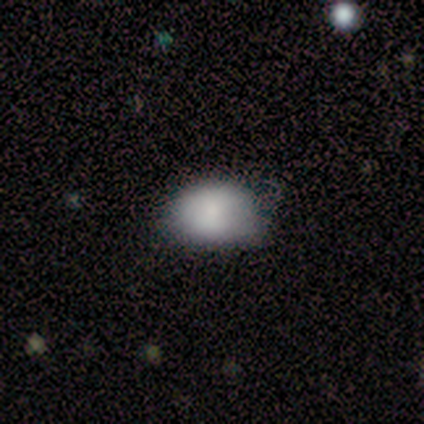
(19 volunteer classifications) Q: Smooth or featured?
A: smooth (89%); runner-up: featured or disk (5%)
Q: How rounded?
A: in between (94%); runner-up: round (6%)
Q: Merging?
A: none (61%); runner-up: minor disturbance (39%)